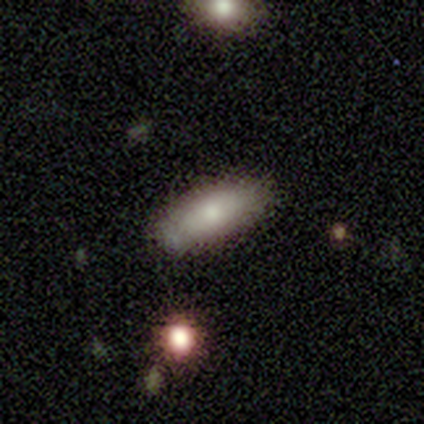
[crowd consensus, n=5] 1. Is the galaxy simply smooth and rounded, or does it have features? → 100% smooth, 0% featured or disk, 0% star or artifact.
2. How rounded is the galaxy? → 100% in between, 0% round, 0% cigar-shaped.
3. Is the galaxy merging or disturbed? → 80% none, 20% merger, 0% minor disturbance, 0% major disturbance.